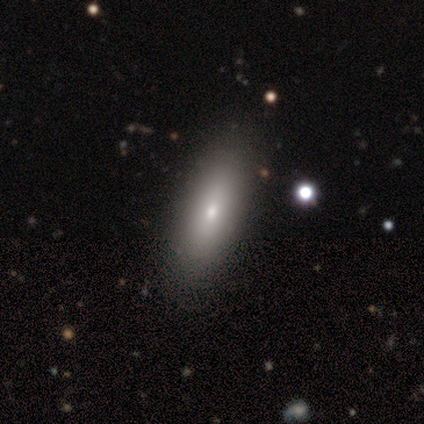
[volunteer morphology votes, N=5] Smooth or featured? 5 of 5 (100%) said smooth. How rounded? 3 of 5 (60%) said in between. Merging? 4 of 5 (80%) said none.